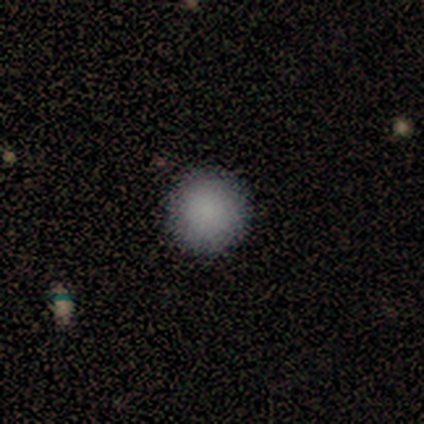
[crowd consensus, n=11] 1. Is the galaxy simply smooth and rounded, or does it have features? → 82% smooth, 9% featured or disk, 9% star or artifact.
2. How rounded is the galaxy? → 100% round, 0% in between, 0% cigar-shaped.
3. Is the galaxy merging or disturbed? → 80% none, 20% major disturbance, 0% minor disturbance, 0% merger.